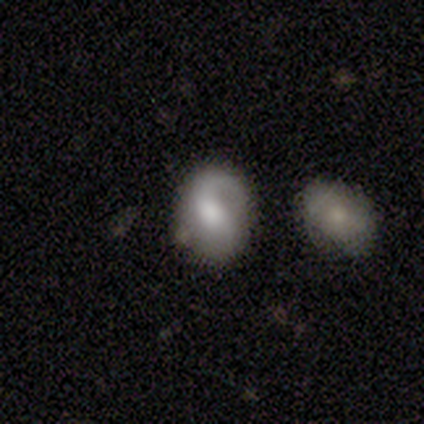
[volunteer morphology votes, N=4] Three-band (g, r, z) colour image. It shows a featured or disk galaxy (75%) with no bar (67%), 1 (100%) loose (100%) spiral arms (67%) and a moderate central bulge (67%). Merging: none (50%).